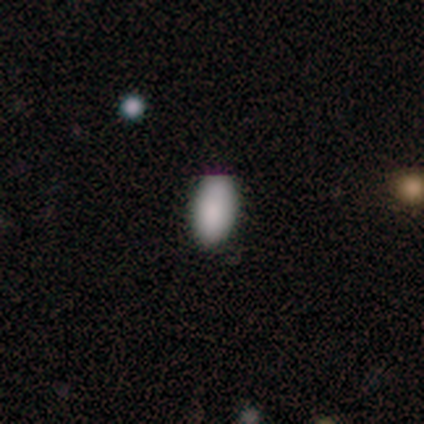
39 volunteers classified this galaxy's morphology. smooth_or_featured: smooth (p=0.95) [alt: featured or disk p=0.03]
how_rounded: in between (p=0.95) [alt: round p=0.05]
merging: none (p=0.87) [alt: minor disturbance p=0.11]